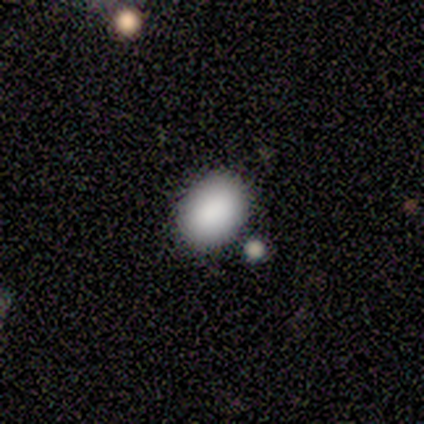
A smooth galaxy with no disk features (100%) that is in between round and cigar-shaped (60%). Merging: none (100%).